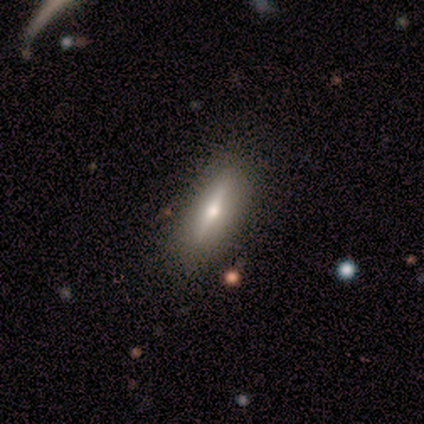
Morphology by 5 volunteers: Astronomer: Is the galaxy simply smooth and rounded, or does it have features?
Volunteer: featured or disk — 60% (runner-up: smooth, 40%).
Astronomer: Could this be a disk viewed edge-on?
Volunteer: yes — 100%.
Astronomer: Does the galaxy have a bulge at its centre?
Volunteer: rounded — 100%.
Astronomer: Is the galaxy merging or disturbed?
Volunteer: none — 100%.